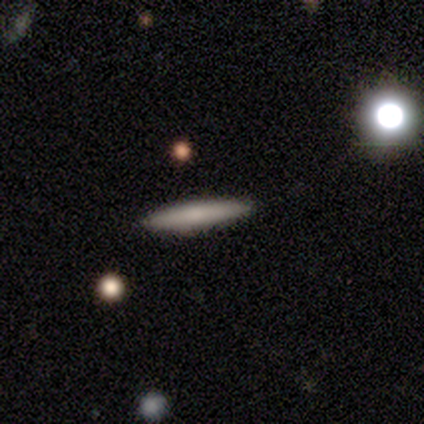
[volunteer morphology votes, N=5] Overall: smooth (60%; featured or disk 40%). How rounded: cigar-shaped (100%). Merging: none (100%).